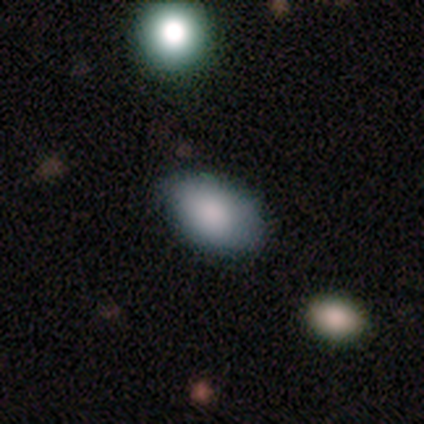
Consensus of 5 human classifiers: Smooth or featured? smooth (60%)
How rounded? in between (100%)
Merging? none (50%, tied with minor disturbance)